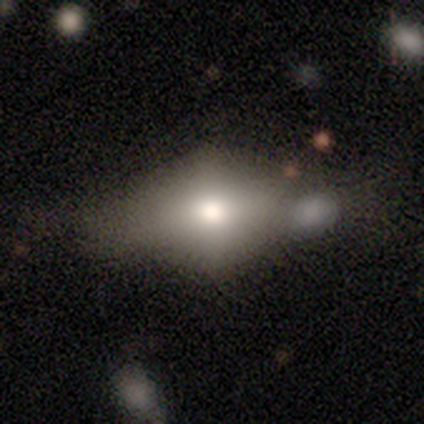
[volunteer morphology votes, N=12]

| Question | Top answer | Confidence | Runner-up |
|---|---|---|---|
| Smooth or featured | smooth | 75% | featured or disk (25%) |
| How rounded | in between | 89% | cigar-shaped (11%) |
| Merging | none | 33% | tied: minor disturbance (33%) |